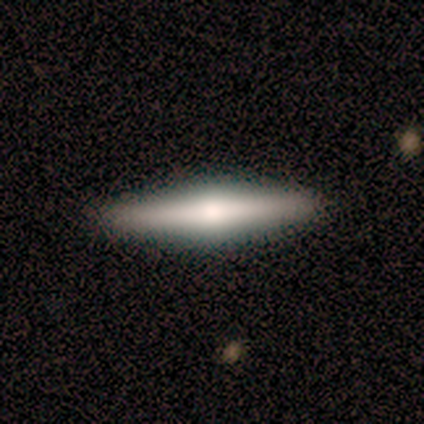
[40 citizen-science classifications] Volunteers were most divided on "smooth or featured": featured or disk: 57%, smooth: 42%, star or artifact: 0%. More confident: edge-on disk — yes (96%); merging — none (92%); edge-on bulge — rounded (91%).